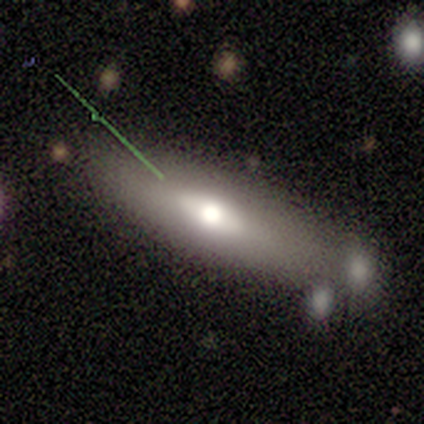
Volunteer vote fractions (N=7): A smooth galaxy with no disk features (71%) that is cigar-shaped (60%). Merging: none (71%).